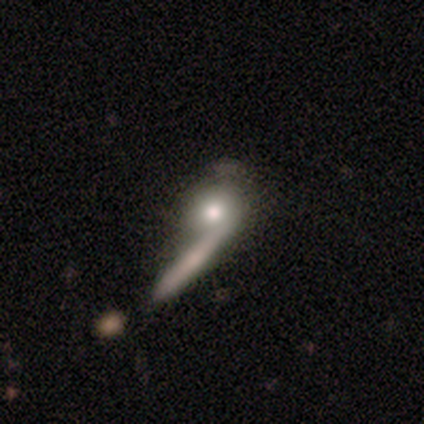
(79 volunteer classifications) This is possibly a smooth galaxy (57%). How rounded: likely round (71%). Merging: marginally merger (41%).